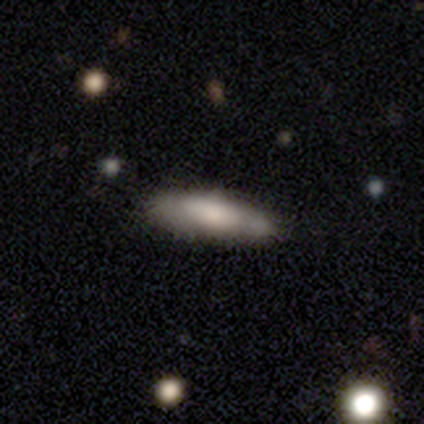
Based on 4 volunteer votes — Smooth or featured?
  - featured or disk: 75% *
  - smooth: 25%
  - star or artifact: 0%
Edge-on disk?
  - yes: 100% *
  - no: 0%
Edge-on bulge?
  - rounded: 67% *
  - none: 33%
  - boxy: 0%
Merging?
  - none: 75% *
  - minor disturbance: 25%
  - major disturbance: 0%
  - merger: 0%